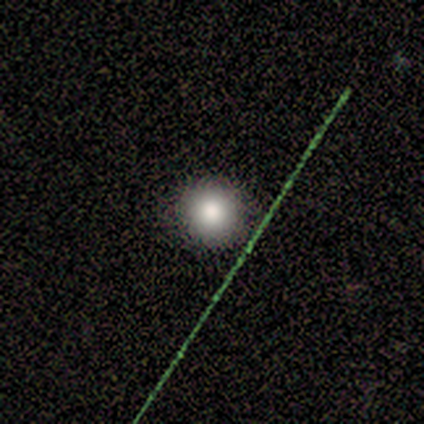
Smooth or featured?
  - smooth: 60% *
  - star or artifact: 40%
  - featured or disk: 0%
How rounded?
  - round: 100% *
  - in between: 0%
  - cigar-shaped: 0%
Merging?
  - none: 100% *
  - minor disturbance: 0%
  - major disturbance: 0%
  - merger: 0%